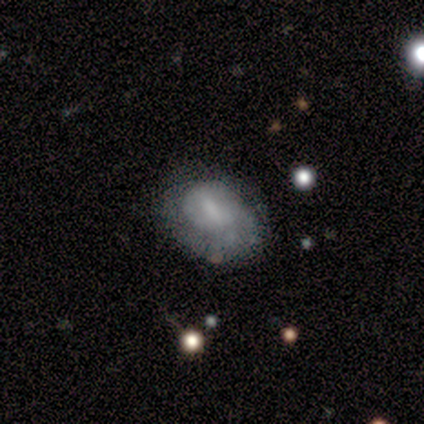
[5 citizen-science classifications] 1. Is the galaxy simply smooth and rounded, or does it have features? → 80% smooth, 20% featured or disk, 0% star or artifact.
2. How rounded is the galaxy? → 100% in between, 0% round, 0% cigar-shaped.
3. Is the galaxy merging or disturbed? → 60% minor disturbance, 40% none, 0% major disturbance, 0% merger.